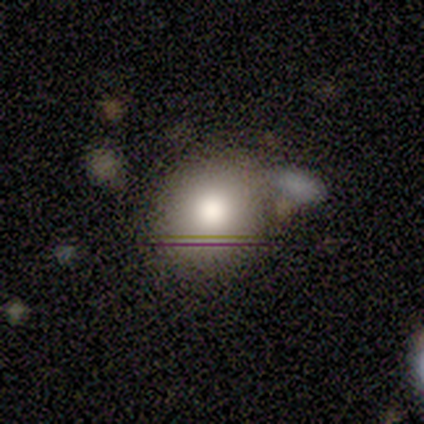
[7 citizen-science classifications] A smooth galaxy with no disk features (57%) that is round (100%).

Vote fractions:
- Smooth or featured? smooth: 57% / featured or disk: 29% / star or artifact: 14%
- How rounded? round: 100% / in between: 0% / cigar-shaped: 0%
- Merging? none: 67% / minor disturbance: 33% / major disturbance: 0% / merger: 0%